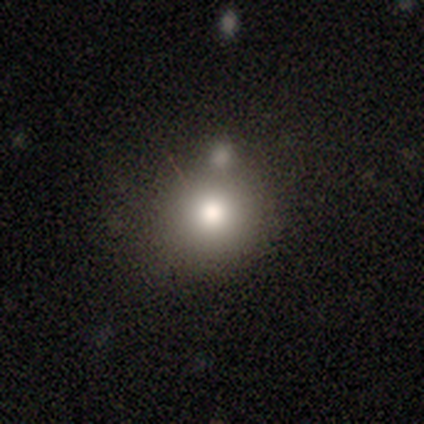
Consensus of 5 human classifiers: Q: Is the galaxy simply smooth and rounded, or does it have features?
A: smooth — 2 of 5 (40%, tied with featured or disk).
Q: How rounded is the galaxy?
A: round — 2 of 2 (100%).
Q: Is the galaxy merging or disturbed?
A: none — 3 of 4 (75%).